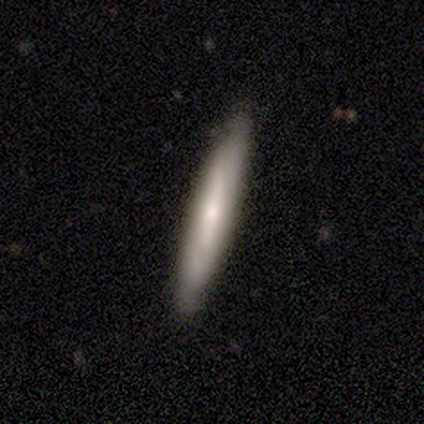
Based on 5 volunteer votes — This is likely a smooth galaxy (60%). How rounded: clearly cigar-shaped (100%). Merging: clearly none (80%).